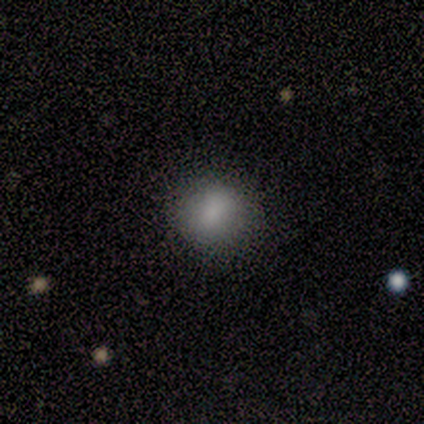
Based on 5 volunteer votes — Morphology: type=smooth (60%); roundness=round (67%); merging=none (100%).